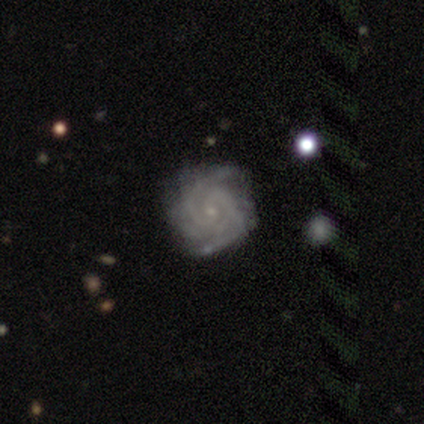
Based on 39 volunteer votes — A featured or disk galaxy (95%) with no bar (60%), 2 (40%) tight (80%) spiral arms (100%) and a small central bulge (83%).

Vote fractions:
- Smooth or featured? featured or disk: 95% / smooth: 3% / star or artifact: 3%
- Edge-on disk? no: 95% / yes: 5%
- Bar? no: 60% / weak: 37% / strong: 3%
- Spiral arms? yes: 100% / no: 0%
- Spiral winding? tight: 80% / medium: 20% / loose: 0%
- Spiral arm count? 2: 40% / can't tell: 23% / 3: 17% / more than 4: 11% / 4: 9% / 1: 0%
- Bulge size? small: 83% / moderate: 11% / none: 6% / dominant: 0% / large: 0%
- Merging? none: 53% / minor disturbance: 16% / major disturbance: 3% / merger: 3%